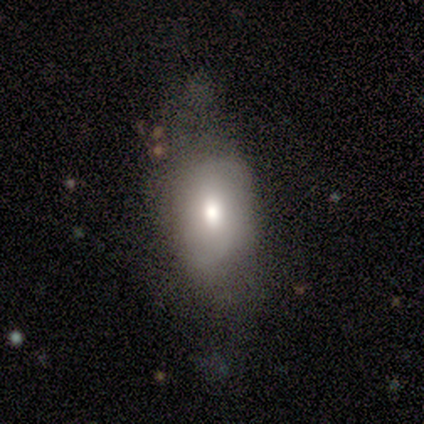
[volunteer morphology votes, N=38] smooth_or_featured: smooth (p=0.58) [alt: featured or disk p=0.37]
how_rounded: in between (p=0.91) [alt: round p=0.05]
merging: none (p=0.47) [alt: minor disturbance p=0.36]